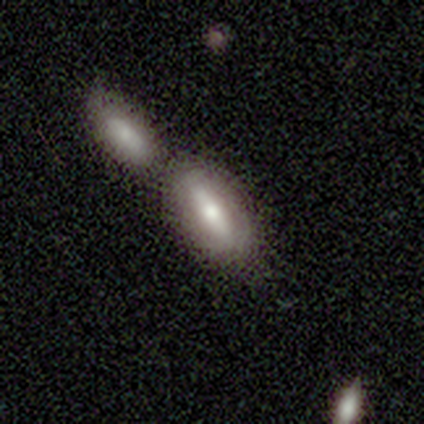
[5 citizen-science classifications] A smooth galaxy with no disk features (80%) that is in between round and cigar-shaped (50%, tied with cigar-shaped). Merging: none (80%).